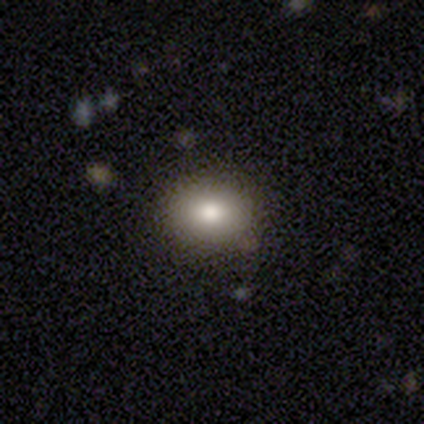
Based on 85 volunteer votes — smooth 73%, featured or disk 15%, star or artifact 12%. Down the decision tree: how rounded — round (55%); merging — none (84%).